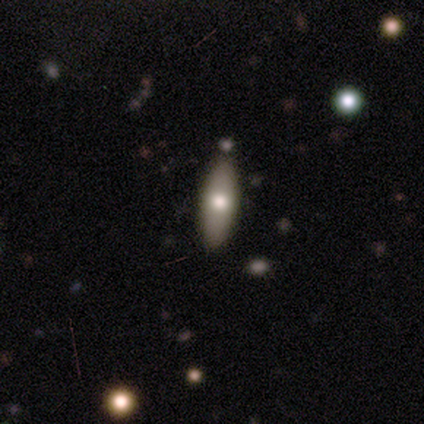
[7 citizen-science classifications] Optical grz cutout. It shows a smooth galaxy with no disk features (86%) that is in between round and cigar-shaped (67%). Merging: none (71%).